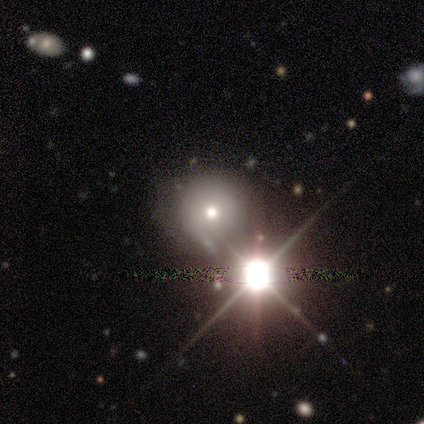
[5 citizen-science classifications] Morphology: type=star or artifact (60%).